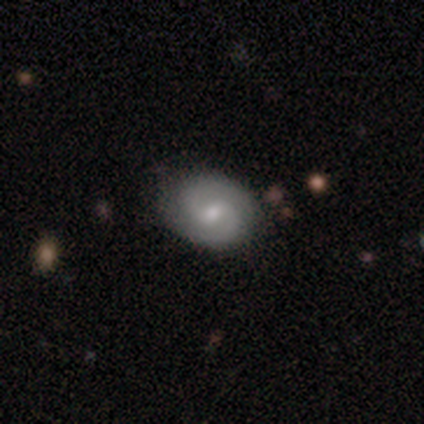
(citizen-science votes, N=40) This is likely a featured or disk galaxy (75%). It is clearly not viewed edge-on (97%). Bar: likely weak (62%). Spiral arm pattern: clearly yes (97%). Spiral arm count: clearly 2 (89%). Spiral winding: possibly medium (57%). Central bulge: possibly moderate (48%). Merging: clearly none (85%).